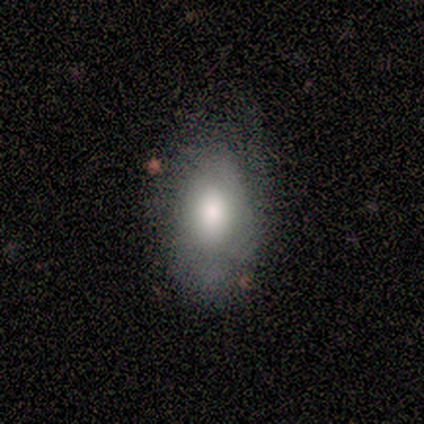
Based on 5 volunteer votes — This is likely a featured or disk galaxy (60%). It is likely not viewed edge-on (67%). Bar: possibly weak (50%, tied with no). Spiral arm pattern: possibly yes (50%, tied with no). Spiral arm count: clearly can't tell (100%). Spiral winding: clearly tight (100%). Central bulge: clearly large (100%). Merging: possibly minor disturbance (50%).